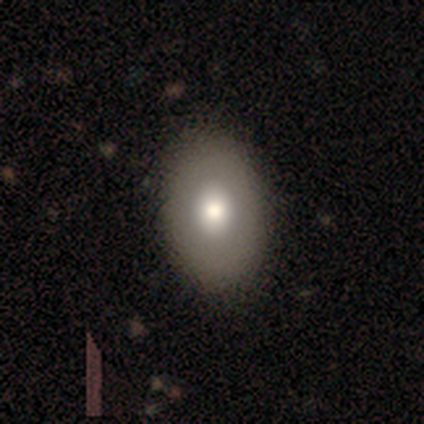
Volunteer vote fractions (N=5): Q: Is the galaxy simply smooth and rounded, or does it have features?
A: featured or disk — 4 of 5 (80%).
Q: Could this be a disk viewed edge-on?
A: no — 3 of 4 (75%).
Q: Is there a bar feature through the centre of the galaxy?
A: no — 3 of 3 (100%).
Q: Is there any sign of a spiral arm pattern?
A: no — 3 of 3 (100%).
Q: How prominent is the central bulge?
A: moderate — 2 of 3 (67%).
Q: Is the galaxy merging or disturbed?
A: none — 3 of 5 (60%).